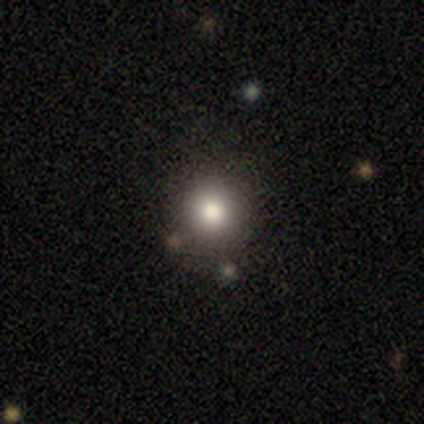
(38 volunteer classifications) This is clearly a smooth galaxy (87%). How rounded: clearly round (88%). Merging: likely none (77%).